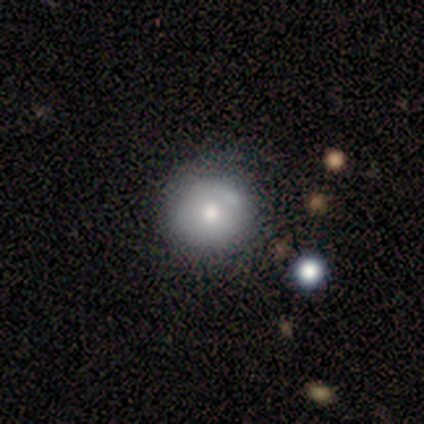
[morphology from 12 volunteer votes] Q: Smooth or featured?
A: smooth (58%); runner-up: featured or disk (33%)
Q: How rounded?
A: round (86%); runner-up: in between (14%)
Q: Merging?
A: none (73%); runner-up: minor disturbance (18%)